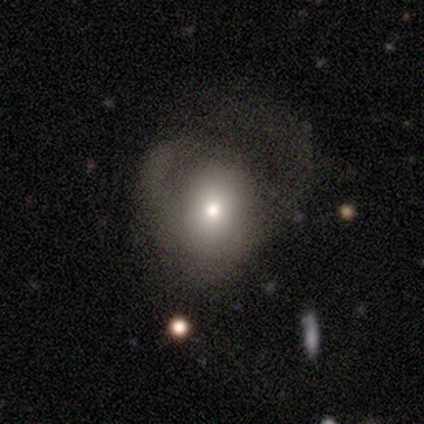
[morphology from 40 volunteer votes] A smooth galaxy with no disk features (65%) that is round (81%). Merging: major disturbance (59%).